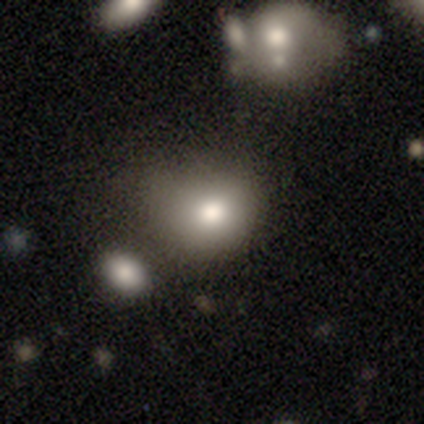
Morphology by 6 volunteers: Smooth or featured?
  - smooth: 67% *
  - featured or disk: 17%
  - star or artifact: 17%
How rounded?
  - round: 50% * (tied)
  - in between: 50% * (tied)
  - cigar-shaped: 0%
Merging?
  - minor disturbance: 60% *
  - none: 40%
  - major disturbance: 0%
  - merger: 0%